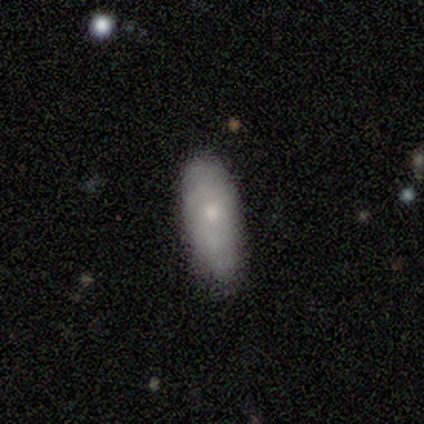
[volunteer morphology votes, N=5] type=smooth (80%); roundness=in between (100%); merging=none (60%).